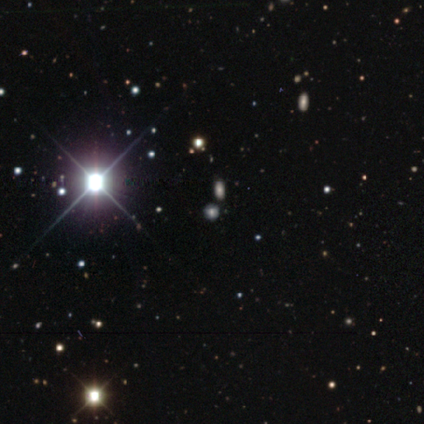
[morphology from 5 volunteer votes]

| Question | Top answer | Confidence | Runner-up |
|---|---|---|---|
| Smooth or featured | star or artifact | 60% | smooth (40%) |